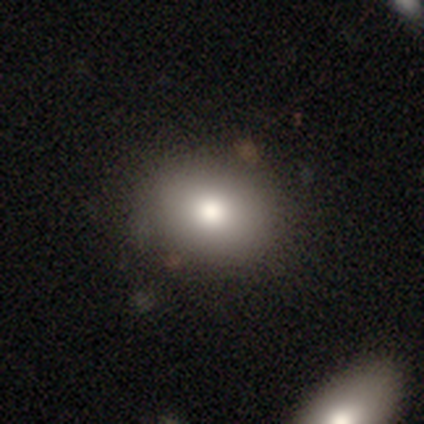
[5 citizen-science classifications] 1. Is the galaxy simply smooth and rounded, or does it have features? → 100% smooth, 0% featured or disk, 0% star or artifact.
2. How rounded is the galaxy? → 60% in between, 40% round, 0% cigar-shaped.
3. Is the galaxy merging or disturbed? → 60% none, 40% minor disturbance, 0% major disturbance, 0% merger.